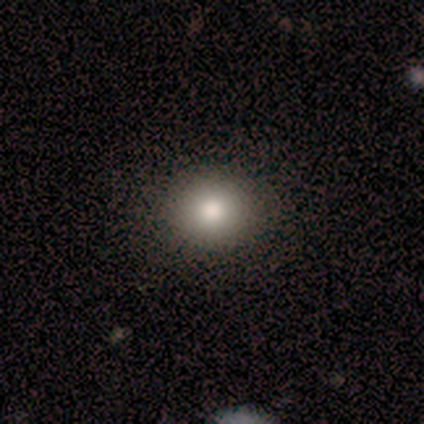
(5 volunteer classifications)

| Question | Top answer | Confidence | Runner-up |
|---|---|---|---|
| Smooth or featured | smooth | 60% | featured or disk (40%) |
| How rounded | round | 67% | in between (33%) |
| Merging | none | 100% | — |